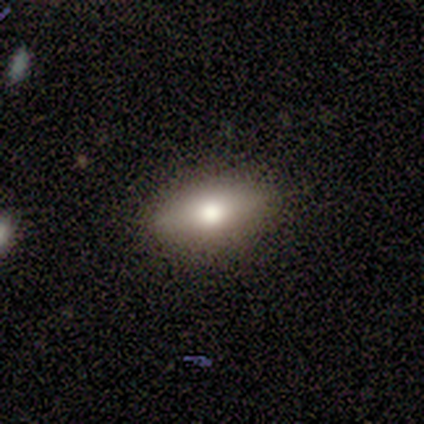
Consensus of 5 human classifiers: Smooth or featured: smooth — 40% (tied with featured or disk — 40%)
How rounded: in between — 50% (tied with cigar-shaped — 50%)
Merging: none — 75% (minor disturbance — 25%)